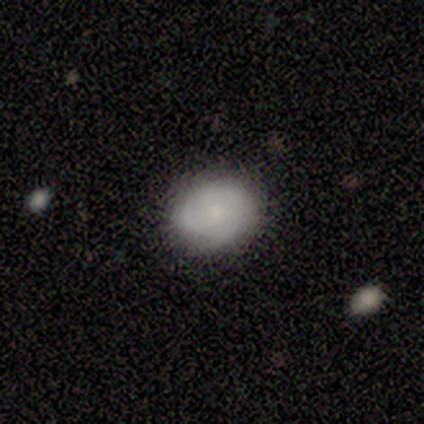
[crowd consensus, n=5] A smooth galaxy with no disk features (60%) that is in between round and cigar-shaped (100%). Merging: none (100%).